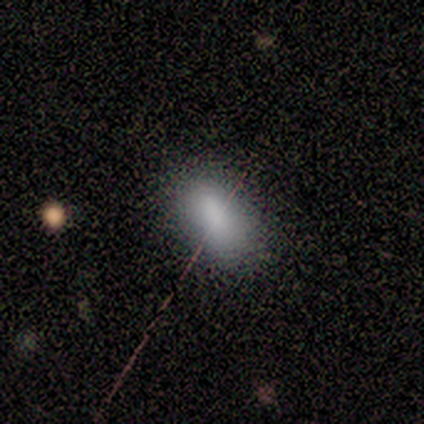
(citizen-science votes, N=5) smooth_or_featured: smooth (p=1.00)
how_rounded: in between (p=1.00)
merging: none (p=0.80) [alt: major disturbance p=0.20]